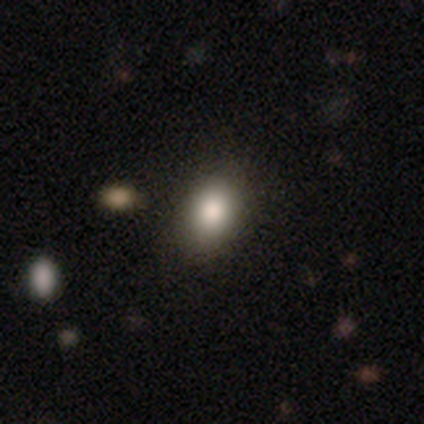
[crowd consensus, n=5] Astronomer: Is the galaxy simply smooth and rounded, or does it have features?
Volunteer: smooth — 80%.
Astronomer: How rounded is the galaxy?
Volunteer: round — 50%, tied with in between at 50%.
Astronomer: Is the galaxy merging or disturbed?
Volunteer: none — 100%.